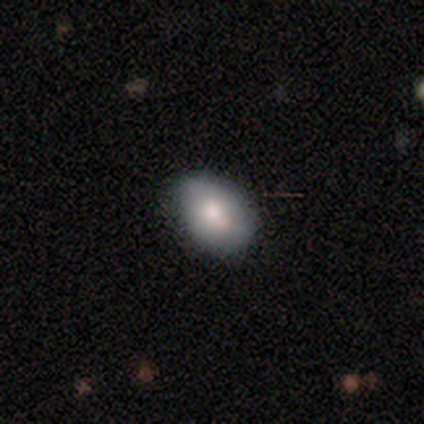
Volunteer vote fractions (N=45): smooth_or_featured: smooth (p=0.89) [alt: featured or disk p=0.09]
how_rounded: in between (p=0.82) [alt: round p=0.17]
merging: none (p=0.77) [alt: minor disturbance p=0.18]